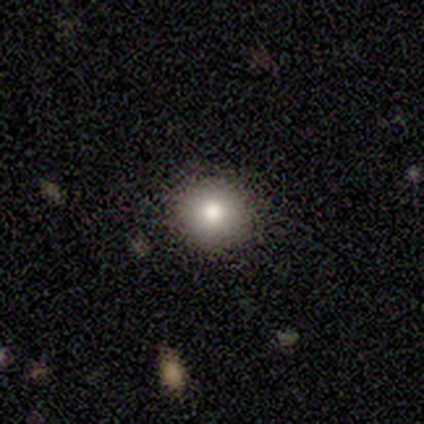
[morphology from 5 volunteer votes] smooth_or_featured: smooth (p=0.80) [alt: featured or disk p=0.20]
how_rounded: round (p=0.75) [alt: in between p=0.25]
merging: none (p=0.80) [alt: minor disturbance p=0.20]